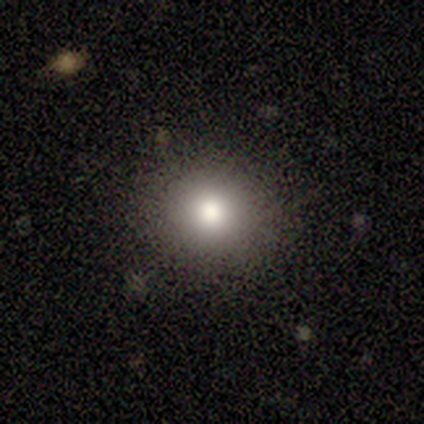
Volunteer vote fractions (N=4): smooth 100%, featured or disk 0%, star or artifact 0%. Down the decision tree: how rounded — round (75%); merging — none (75%).